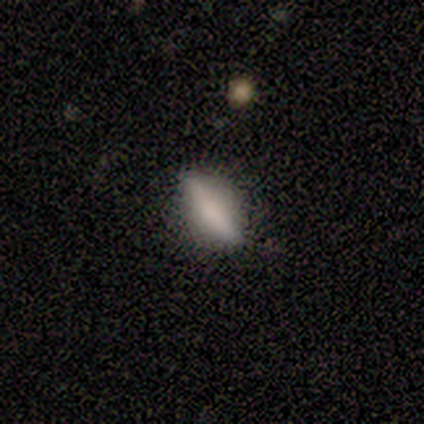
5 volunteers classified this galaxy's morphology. smooth-or-featured: smooth: 80% | featured or disk: 20% | star or artifact: 0%
  how-rounded: cigar-shaped: 75% | in between: 25% | round: 0%
  merging: minor disturbance: 60% | none: 40% | major disturbance: 0% | merger: 0%